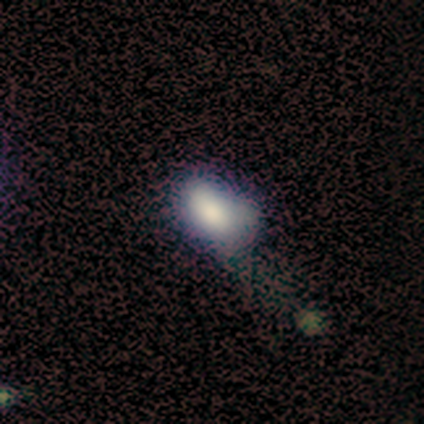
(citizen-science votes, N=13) Smooth or featured? smooth (62%)
How rounded? in between (100%)
Merging? major disturbance (45%)